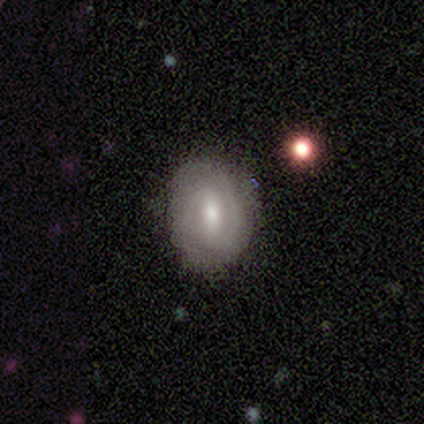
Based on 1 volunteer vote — Smooth or featured?
  - featured or disk: 100% *
  - smooth: 0%
  - star or artifact: 0%
Edge-on disk?
  - no: 100% *
  - yes: 0%
Bar?
  - no: 100% *
  - strong: 0%
  - weak: 0%
Spiral arms?
  - yes: 100% *
  - no: 0%
Spiral winding?
  - tight: 100% *
  - medium: 0%
  - loose: 0%
Spiral arm count?
  - 3: 100% *
  - 1: 0%
  - 2: 0%
  - 4: 0%
  - more than 4: 0%
  - can't tell: 0%
Bulge size?
  - moderate: 100% *
  - dominant: 0%
  - large: 0%
  - small: 0%
  - none: 0%
Merging?
  - minor disturbance: 100% *
  - none: 0%
  - major disturbance: 0%
  - merger: 0%